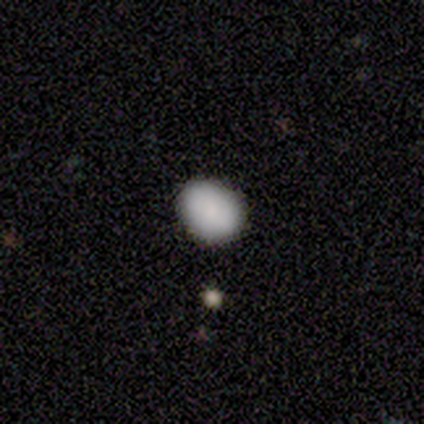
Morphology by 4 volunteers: smooth-or-featured: smooth: 75% | featured or disk: 25% | star or artifact: 0%
  how-rounded: in between: 100% | round: 0% | cigar-shaped: 0%
  merging: none: 50% (tied) | minor disturbance: 50% (tied) | major disturbance: 0% | merger: 0%